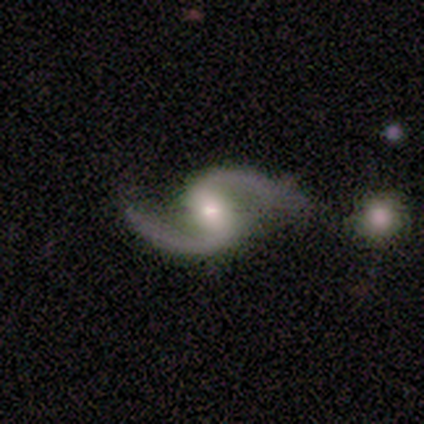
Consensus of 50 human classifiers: Morphology: type=featured or disk (98%); edge-on=no (94%); bar=weak (57%); spiral arms=yes (98%); winding=loose (76%); arm count=2 (98%); bulge=moderate (54%); merging=none (78%).